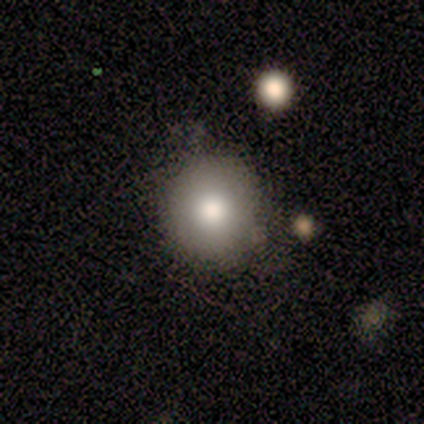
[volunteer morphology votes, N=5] A smooth galaxy with no disk features (100%) that is round (100%).

Vote fractions:
- Smooth or featured? smooth: 100% / featured or disk: 0% / star or artifact: 0%
- How rounded? round: 100% / in between: 0% / cigar-shaped: 0%
- Merging? none: 100% / minor disturbance: 0% / major disturbance: 0% / merger: 0%